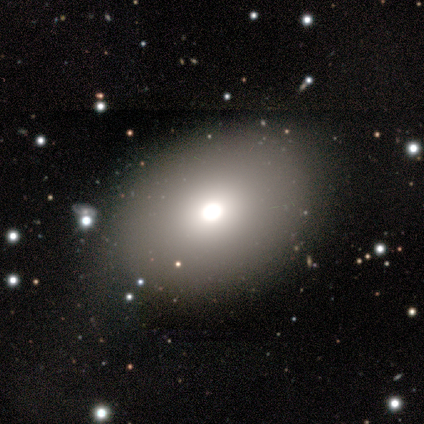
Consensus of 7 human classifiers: Smooth or featured: smooth — 86% (featured or disk — 14%)
How rounded: in between — 100%
Merging: minor disturbance — 57% (none — 43%)